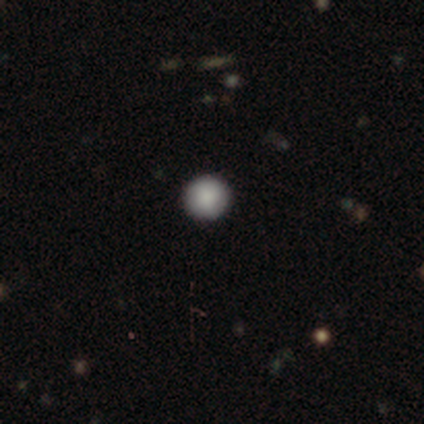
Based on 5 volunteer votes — Overall: smooth (100%). How rounded: round (80%). Merging: none (80%).